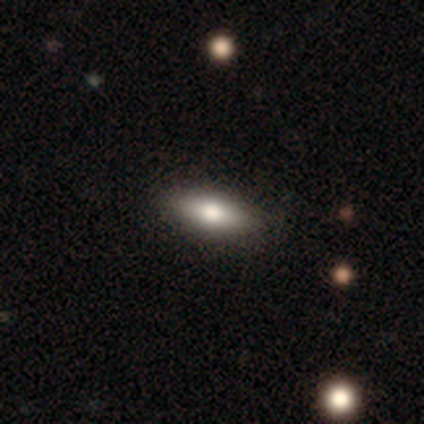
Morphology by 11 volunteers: Volunteers were most divided on "smooth or featured" (2-way tie): smooth: 36%, star or artifact: 36%, featured or disk: 27%; "how rounded" (2-way tie): in between: 50%, cigar-shaped: 50%, round: 0%. More confident: merging — none (86%).